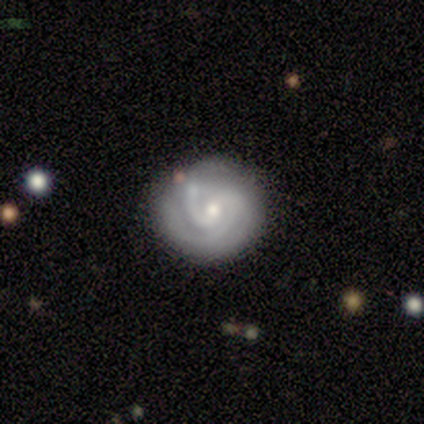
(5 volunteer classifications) smooth_or_featured: featured or disk (p=0.80) [alt: smooth p=0.20]
disk_edge_on: no (p=1.00)
bar: no (p=0.75) [alt: weak p=0.25]
has_spiral_arms: yes (p=1.00)
spiral_winding: tight (p=0.50) [tied with: medium p=0.50]
spiral_arm_count: 2 (p=0.75) [alt: can't tell p=0.25]
bulge_size: moderate (p=0.50) [tied with: small p=0.50]
merging: none (p=1.00)